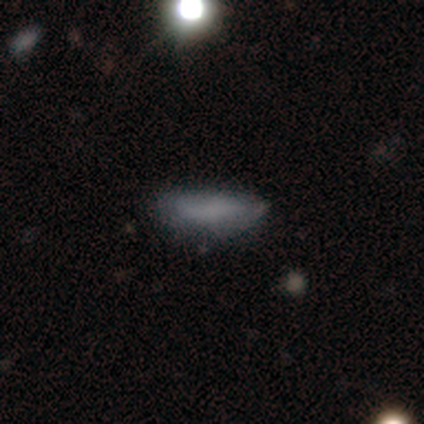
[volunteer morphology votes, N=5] smooth_or_featured: smooth (p=0.60) [alt: featured or disk p=0.20]
how_rounded: in between (p=0.67) [alt: cigar-shaped p=0.33]
merging: none (p=0.75) [alt: major disturbance p=0.25]